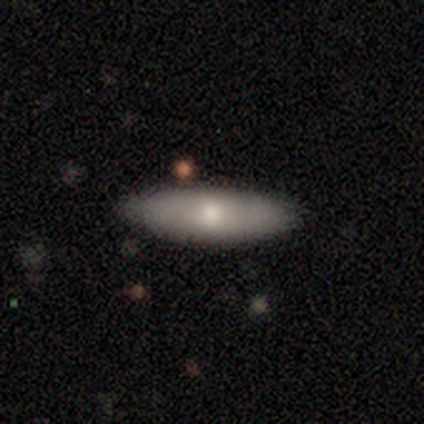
Q: Smooth or featured?
A: smooth (80%); runner-up: featured or disk (20%)
Q: How rounded?
A: in between (75%); runner-up: cigar-shaped (25%)
Q: Merging?
A: none (80%); runner-up: minor disturbance (20%)